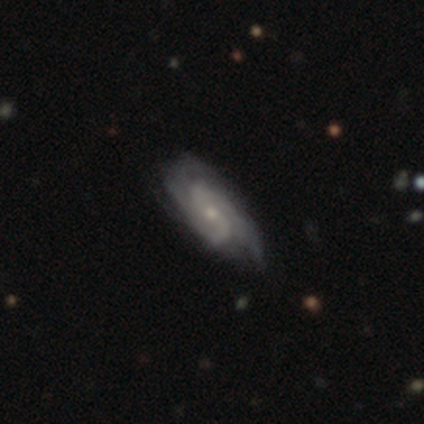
Overall: featured or disk (100%). Edge-on disk: no (100%). Bar: no (60%; weak 40%). Spiral arms: yes (80%). Spiral arm count: 2 (75%). Spiral winding: tight (50%, tied with loose). Bulge size: small (60%; moderate 40%). Merging: none (100%).